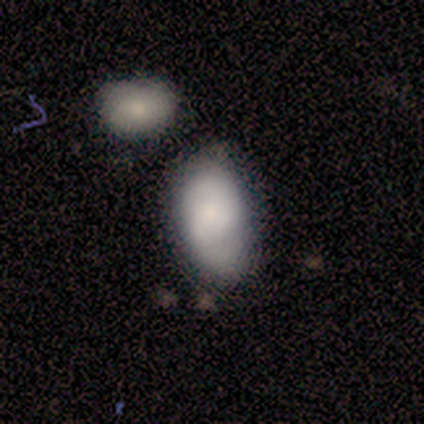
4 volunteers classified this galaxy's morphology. This is possibly a smooth galaxy (50%, tied with featured or disk). How rounded: clearly in between (100%). Merging: possibly minor disturbance (50%).